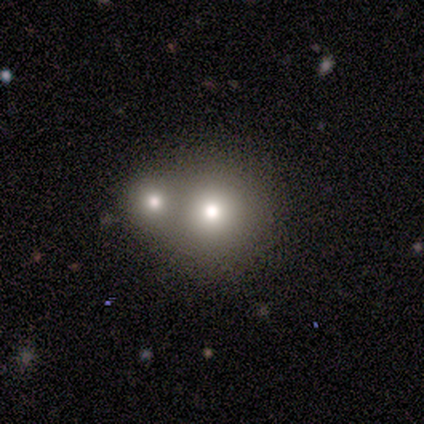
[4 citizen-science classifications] A smooth galaxy with no disk features (75%) that is round (100%).

Vote fractions:
- Smooth or featured? smooth: 75% / featured or disk: 25% / star or artifact: 0%
- How rounded? round: 100% / in between: 0% / cigar-shaped: 0%
- Merging? merger: 75% / none: 25% / minor disturbance: 0% / major disturbance: 0%